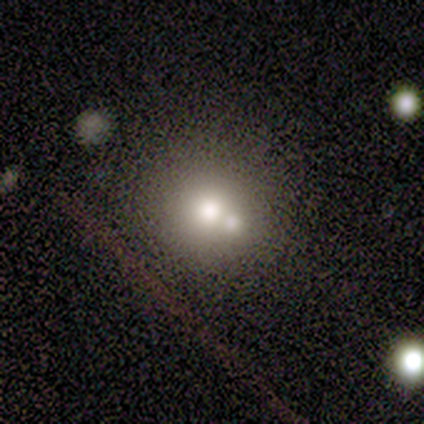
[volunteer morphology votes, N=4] smooth 100%, featured or disk 0%, star or artifact 0%. Down the decision tree: how rounded — round (100%); merging — none (50%, tied with merger).